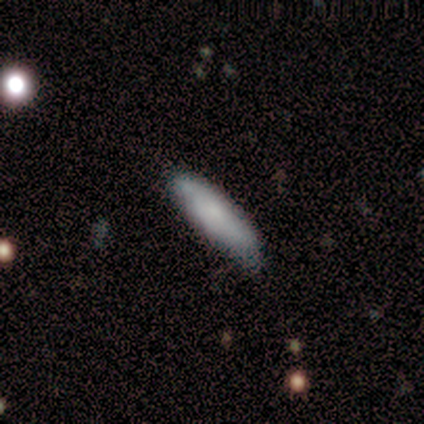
Q: Smooth or featured?
A: smooth (80%); runner-up: featured or disk (20%)
Q: How rounded?
A: cigar-shaped (100%)
Q: Merging?
A: none (60%); runner-up: minor disturbance (40%)